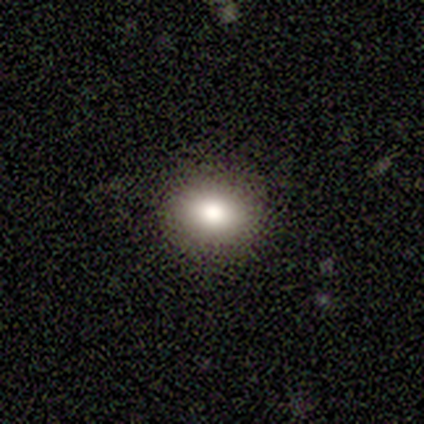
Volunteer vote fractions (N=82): A smooth galaxy with no disk features (80%) that is round (56%). Merging: none (89%).